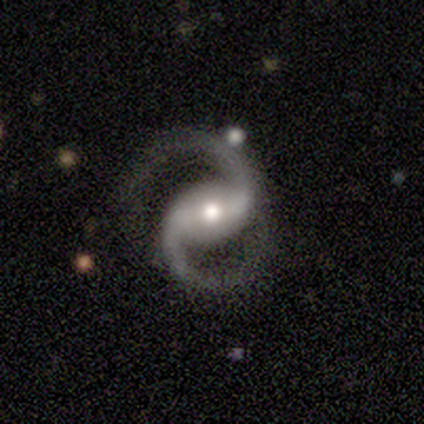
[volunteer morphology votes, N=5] Smooth or featured: featured or disk — 100%
Edge-on disk: no — 100%
Bar: strong — 60% (weak — 20%)
Spiral arms: yes — 100%
Spiral winding: medium — 40% (tied with loose — 40%)
Spiral arm count: 2 — 100%
Bulge size: moderate — 40% (tied with small — 40%)
Merging: none — 80% (minor disturbance — 20%)